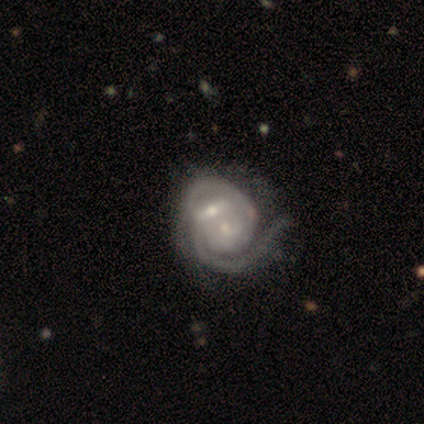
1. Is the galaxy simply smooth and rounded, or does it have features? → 100% featured or disk, 0% smooth, 0% star or artifact.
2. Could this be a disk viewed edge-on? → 100% no, 0% yes.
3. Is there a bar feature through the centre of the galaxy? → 33% strong (tied), 33% weak (tied), 33% no (tied).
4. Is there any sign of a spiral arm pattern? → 100% yes, 0% no.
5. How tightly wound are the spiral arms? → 67% tight, 33% loose, 0% medium.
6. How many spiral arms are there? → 100% 2, 0% 1, 0% 3, 0% 4, 0% more than 4, 0% can't tell.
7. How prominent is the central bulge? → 100% small, 0% dominant, 0% large, 0% moderate, 0% none.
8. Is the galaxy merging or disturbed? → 33% none (tied), 33% minor disturbance (tied), 33% merger (tied), 0% major disturbance.